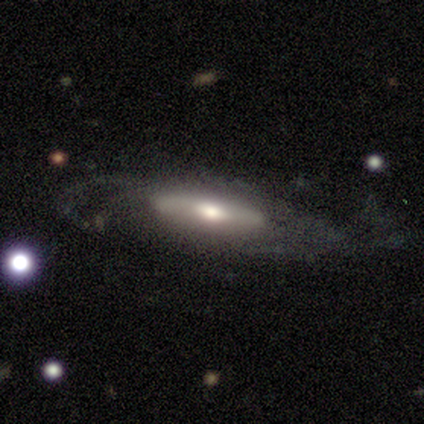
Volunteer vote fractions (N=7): Smooth or featured? featured or disk (71%)
Edge-on disk? no (80%)
Bar? weak (50%, tied with no)
Spiral arms? yes (50%, tied with no)
Spiral winding? medium (50%, tied with loose)
Spiral arm count? 2 (100%)
Bulge size? moderate (75%)
Merging? major disturbance (43%)